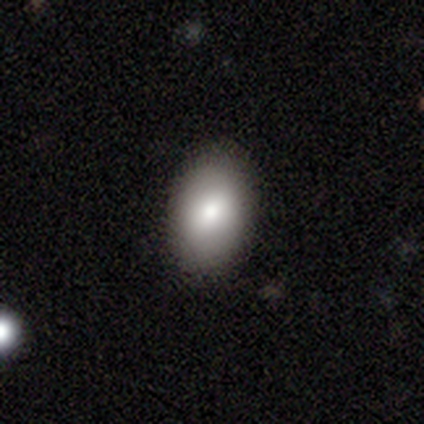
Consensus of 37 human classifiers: smooth-or-featured: smooth: 86% | featured or disk: 8% | star or artifact: 5%
  how-rounded: in between: 84% | round: 16% | cigar-shaped: 0%
  merging: none: 94% | minor disturbance: 6% | major disturbance: 0% | merger: 0%